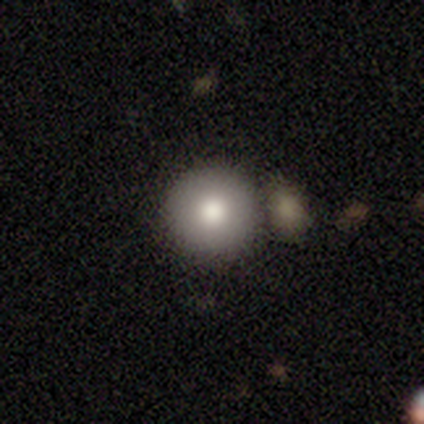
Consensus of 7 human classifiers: smooth-or-featured: smooth: 86% | star or artifact: 14% | featured or disk: 0%
  how-rounded: round: 100% | in between: 0% | cigar-shaped: 0%
  merging: none: 83% | merger: 17% | minor disturbance: 0% | major disturbance: 0%